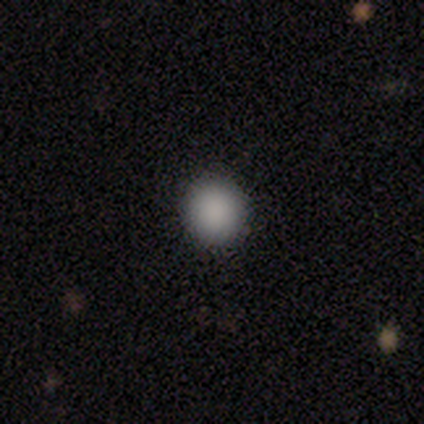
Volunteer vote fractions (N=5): smooth 100%, featured or disk 0%, star or artifact 0%. Down the decision tree: how rounded — round (80%); merging — none (60%).